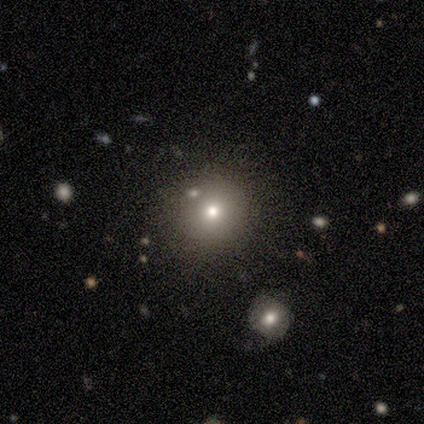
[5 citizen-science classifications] Smooth or featured: smooth — 40% (tied with featured or disk — 40%)
How rounded: round — 100%
Merging: none — 100%